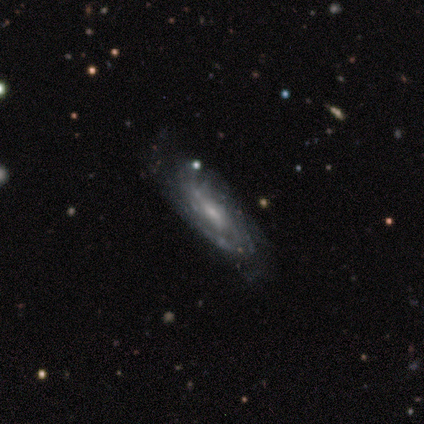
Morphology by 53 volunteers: A featured or disk galaxy (83%) with no bar (55%), tight (55%) spiral arms (87%) and a small central bulge (55%). Merging: none (55%).